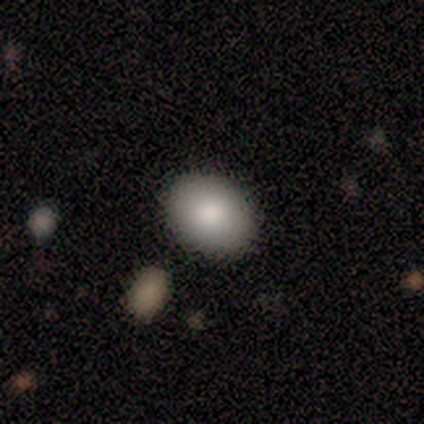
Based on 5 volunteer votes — Smooth or featured: smooth — 80% (star or artifact — 20%)
How rounded: round — 75% (in between — 25%)
Merging: none — 100%